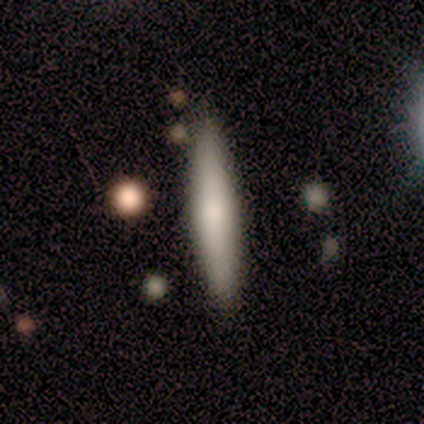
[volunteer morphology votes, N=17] smooth-or-featured: smooth: 82% | featured or disk: 18% | star or artifact: 0%
  how-rounded: cigar-shaped: 100% | round: 0% | in between: 0%
  merging: none: 94% | minor disturbance: 6% | major disturbance: 0% | merger: 0%